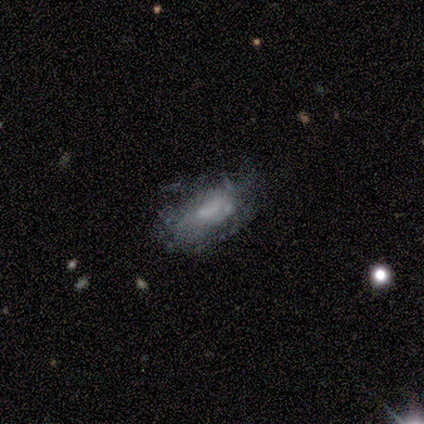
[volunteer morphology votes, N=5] Smooth or featured: smooth — 40% (tied with star or artifact — 40%)
How rounded: in between — 100%
Merging: none — 67% (minor disturbance — 33%)